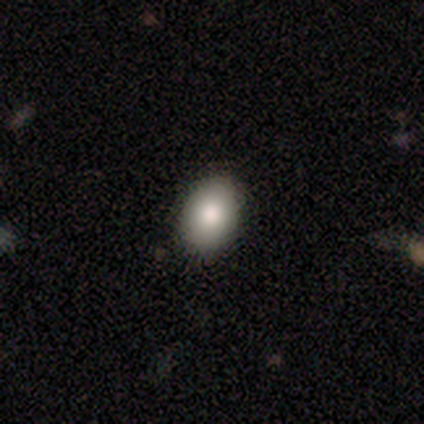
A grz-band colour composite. It shows a smooth galaxy with no disk features (80%) that is in between round and cigar-shaped (76%). Merging: none (90%).